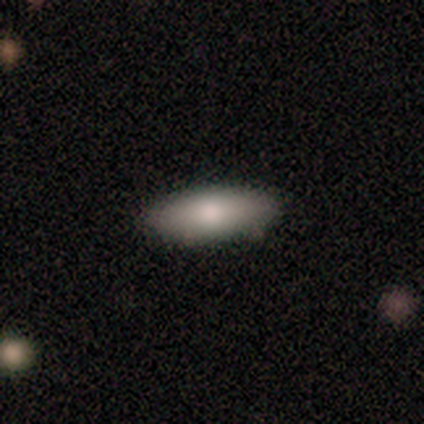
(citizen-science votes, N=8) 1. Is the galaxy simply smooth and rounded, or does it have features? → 50% smooth, 38% featured or disk, 12% star or artifact.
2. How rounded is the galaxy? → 100% in between, 0% round, 0% cigar-shaped.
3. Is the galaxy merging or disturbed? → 86% none, 14% minor disturbance, 0% major disturbance, 0% merger.